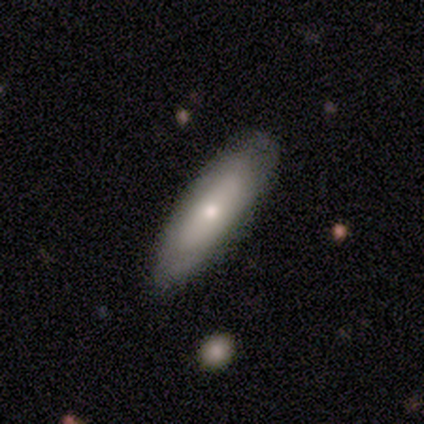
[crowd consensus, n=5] smooth_or_featured: featured or disk (p=0.60) [alt: smooth p=0.20]
disk_edge_on: yes (p=0.67) [alt: no p=0.33]
edge_on_bulge: none (p=0.50) [tied with: rounded p=0.50]
merging: none (p=0.75) [alt: major disturbance p=0.25]